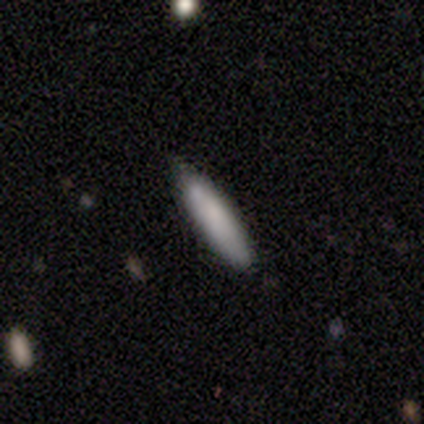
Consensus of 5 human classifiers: This is clearly a smooth galaxy (100%). How rounded: clearly cigar-shaped (80%). Merging: clearly none (100%).